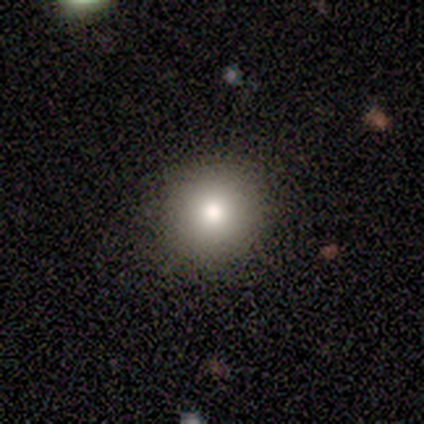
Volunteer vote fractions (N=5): Q: Smooth or featured?
A: smooth (100%)
Q: How rounded?
A: round (100%)
Q: Merging?
A: none (100%)